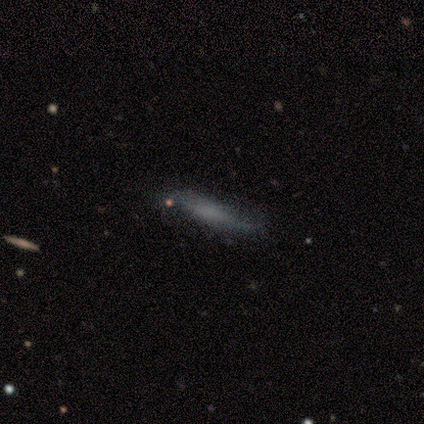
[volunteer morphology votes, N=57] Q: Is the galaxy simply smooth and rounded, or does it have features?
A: smooth — 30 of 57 (53%).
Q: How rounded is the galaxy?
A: cigar-shaped — 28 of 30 (93%).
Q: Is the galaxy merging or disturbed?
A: none — 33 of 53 (62%).